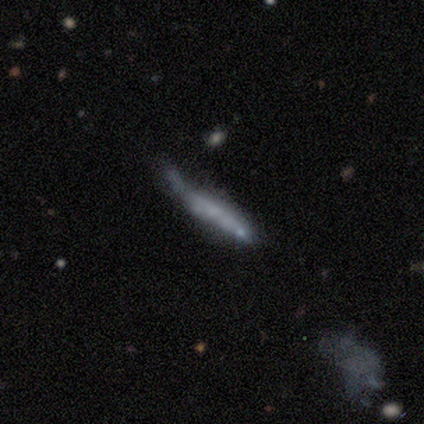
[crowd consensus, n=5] Overall: featured or disk (60%; smooth 20%). Edge-on disk: no (67%; yes 33%). Bar: weak (50%, tied with no). Spiral arms: yes (50%, tied with no). Spiral arm count: can't tell (100%). Spiral winding: loose (100%). Bulge size: small (50%, tied with none). Merging: none (50%, tied with minor disturbance).